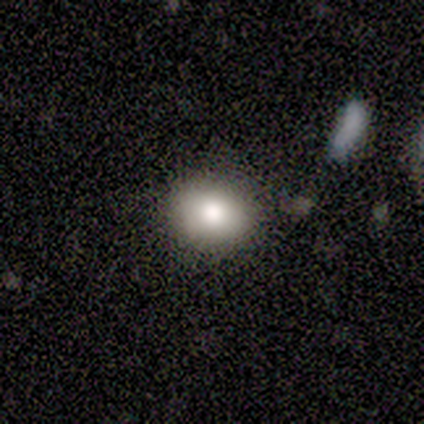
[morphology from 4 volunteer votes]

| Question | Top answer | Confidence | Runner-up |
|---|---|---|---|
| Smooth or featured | smooth | 75% | featured or disk (25%) |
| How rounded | round | 67% | in between (33%) |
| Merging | none | 50% | minor disturbance (25%) |